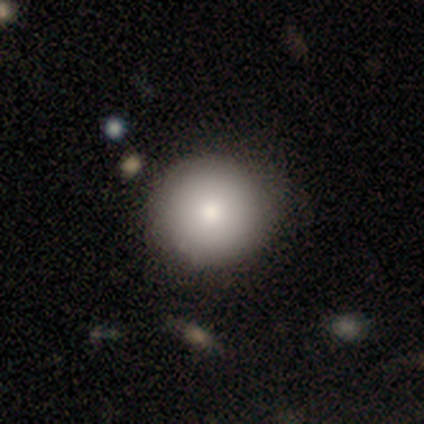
A smooth galaxy with no disk features (82%) that is round (100%). Merging: none (82%).